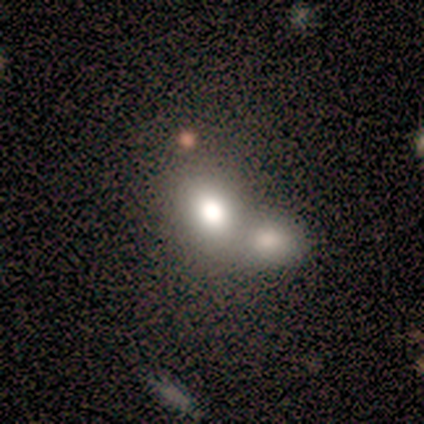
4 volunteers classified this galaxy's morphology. Overall: smooth (50%, tied with featured or disk). How rounded: in between (100%). Merging: merger (100%).